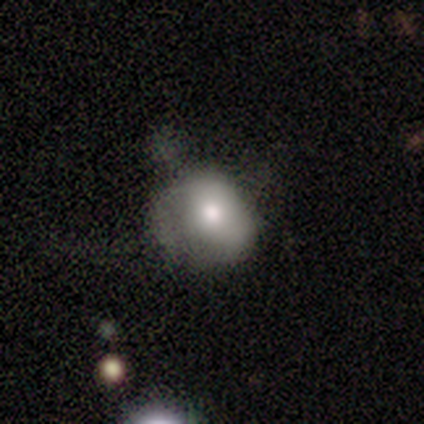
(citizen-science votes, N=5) Morphology: type=smooth (60%); roundness=round (67%); merging=minor disturbance (40%, tied with major disturbance).